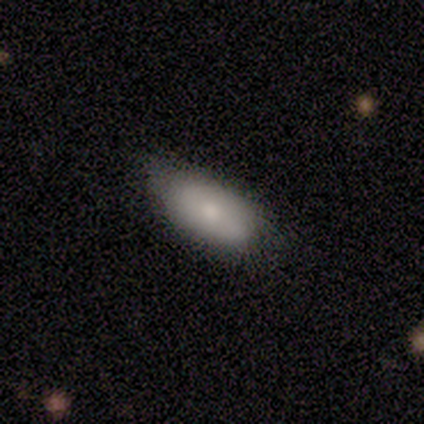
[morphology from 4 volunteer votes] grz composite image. It shows a smooth galaxy with no disk features (75%) that is in between round and cigar-shaped (67%). Merging: none (100%).